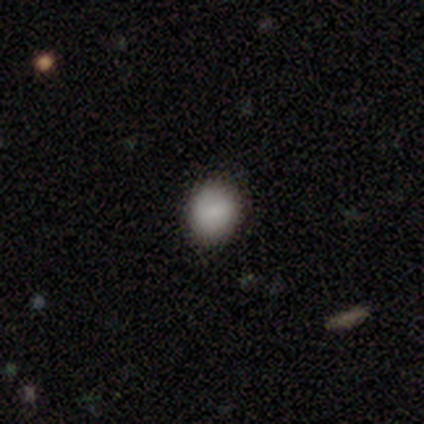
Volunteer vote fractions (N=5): A smooth galaxy with no disk features (60%) that is round (67%). Merging: none (60%).